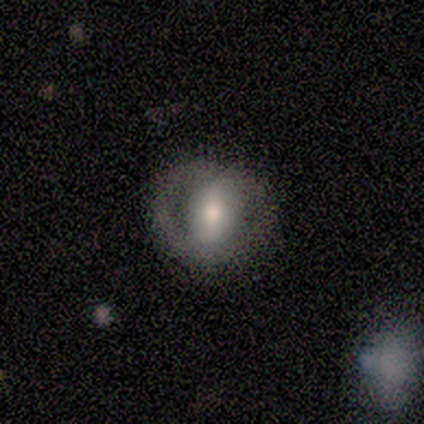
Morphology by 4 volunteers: Smooth or featured? 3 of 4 (75%) said featured or disk. Edge-on disk? 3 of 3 (100%) said no. Bar? 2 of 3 (67%) said weak. Spiral arms? 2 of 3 (67%) said no. Bulge size? 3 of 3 (100%) said moderate. Merging? 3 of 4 (75%) said none.